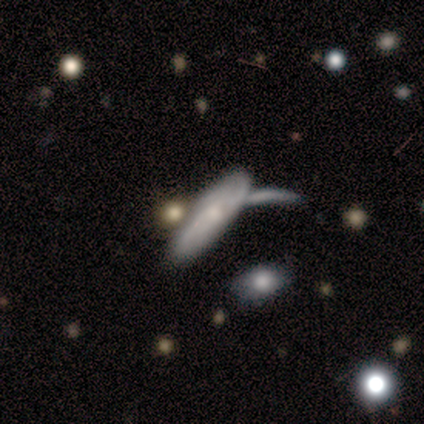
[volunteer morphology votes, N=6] A smooth galaxy with no disk features (50%) that is in between round and cigar-shaped (100%).

Vote fractions:
- Smooth or featured? smooth: 50% / featured or disk: 33% / star or artifact: 17%
- How rounded? in between: 100% / round: 0% / cigar-shaped: 0%
- Merging? none: 60% / minor disturbance: 20% / major disturbance: 20% / merger: 0%